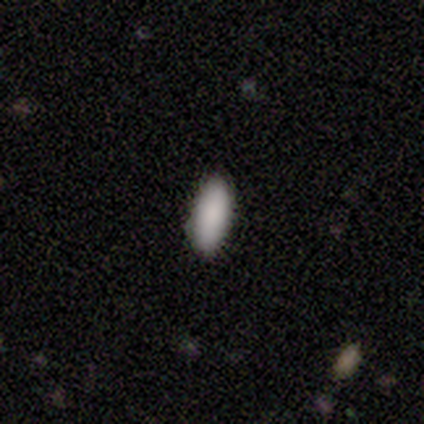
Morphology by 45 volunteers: smooth-or-featured: smooth: 78% | star or artifact: 18% | featured or disk: 4%
  how-rounded: in between: 77% | cigar-shaped: 23% | round: 0%
  merging: none: 100% | minor disturbance: 0% | major disturbance: 0% | merger: 0%